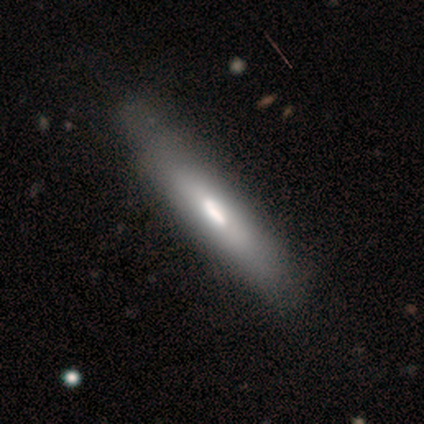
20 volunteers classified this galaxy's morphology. Q: Smooth or featured?
A: smooth (60%); runner-up: featured or disk (40%)
Q: How rounded?
A: cigar-shaped (92%); runner-up: in between (8%)
Q: Merging?
A: none (40%); runner-up: minor disturbance (10%)